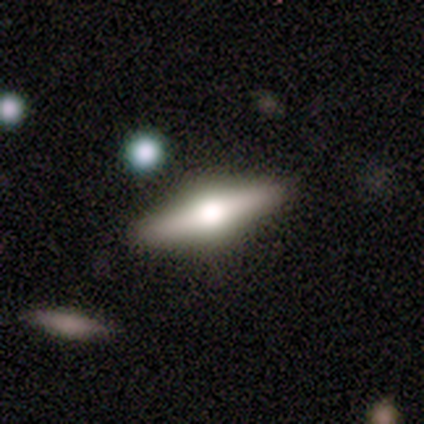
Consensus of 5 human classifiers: A featured or disk galaxy (80%) viewed edge-on (75%) with a rounded central bulge (67%). Merging: none (80%).